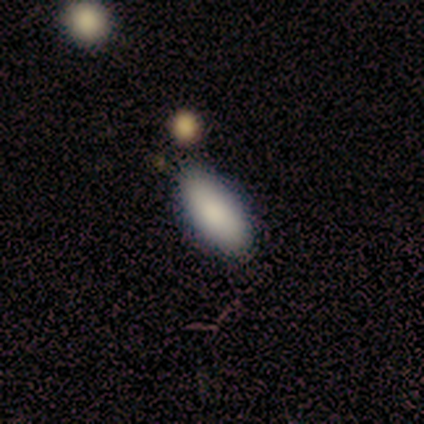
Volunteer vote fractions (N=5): A smooth galaxy with no disk features (100%) that is in between round and cigar-shaped (100%). Merging: none (100%).